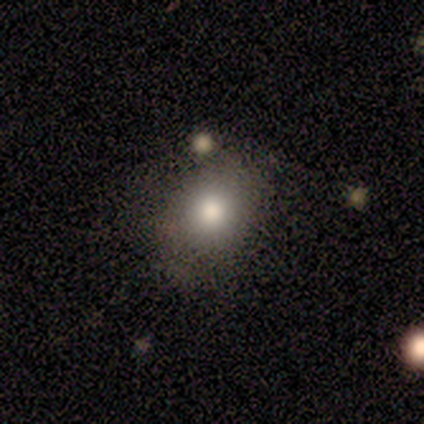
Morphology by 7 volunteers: Smooth or featured? smooth (71%)
How rounded? round (60%)
Merging? none (86%)